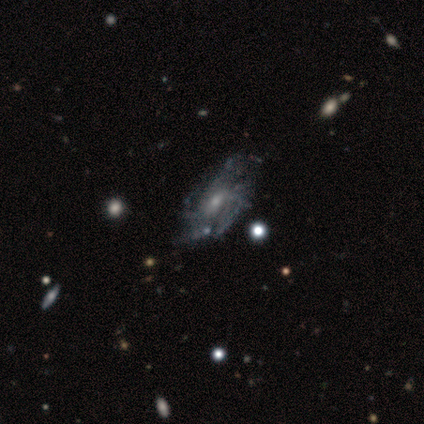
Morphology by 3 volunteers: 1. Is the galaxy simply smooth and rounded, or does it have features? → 100% featured or disk, 0% smooth, 0% star or artifact.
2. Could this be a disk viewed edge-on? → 100% no, 0% yes.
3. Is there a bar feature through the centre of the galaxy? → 100% no, 0% strong, 0% weak.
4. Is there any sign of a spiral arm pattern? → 100% yes, 0% no.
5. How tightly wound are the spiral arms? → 67% tight, 33% loose, 0% medium.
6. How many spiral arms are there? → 67% 3, 33% can't tell, 0% 1, 0% 2, 0% 4, 0% more than 4.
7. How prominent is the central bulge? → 67% moderate, 33% small, 0% dominant, 0% large, 0% none.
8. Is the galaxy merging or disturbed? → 67% none, 33% major disturbance, 0% minor disturbance, 0% merger.